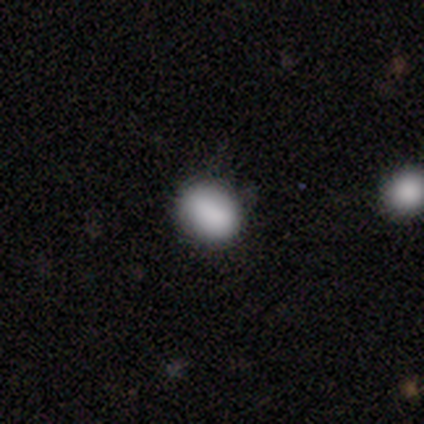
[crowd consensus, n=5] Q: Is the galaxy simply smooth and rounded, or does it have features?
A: smooth — 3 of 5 (60%).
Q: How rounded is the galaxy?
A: in between — 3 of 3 (100%).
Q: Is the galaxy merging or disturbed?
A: none — 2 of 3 (67%).